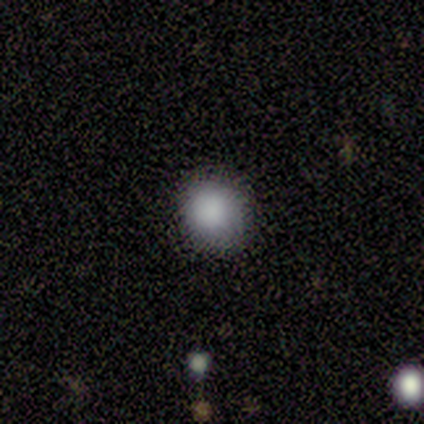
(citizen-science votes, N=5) This is clearly a smooth galaxy (100%). How rounded: likely in between (60%). Merging: clearly none (80%).